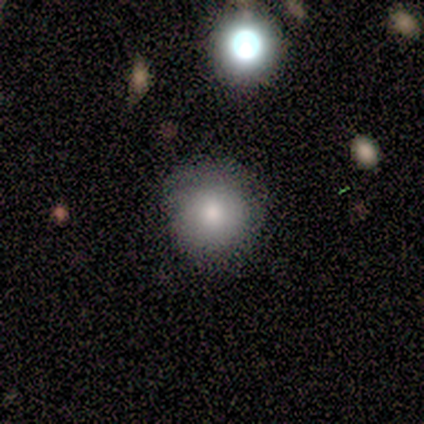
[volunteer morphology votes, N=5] A smooth galaxy with no disk features (80%) that is round (75%).

Vote fractions:
- Smooth or featured? smooth: 80% / featured or disk: 20% / star or artifact: 0%
- How rounded? round: 75% / in between: 25% / cigar-shaped: 0%
- Merging? none: 100% / minor disturbance: 0% / major disturbance: 0% / merger: 0%